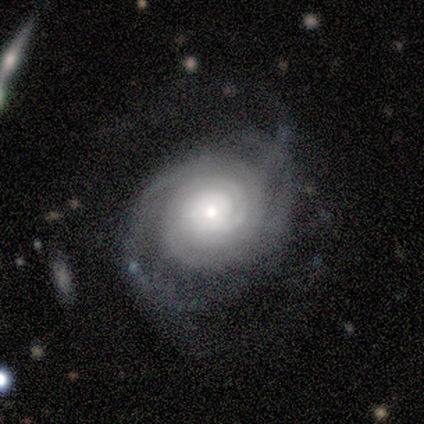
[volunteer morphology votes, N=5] type=featured or disk (100%); edge-on=no (100%); bar=no (60%); spiral arms=yes (100%); winding=tight (100%); arm count=3 (40%); bulge=moderate (60%); merging=none (40%, tied with minor disturbance).